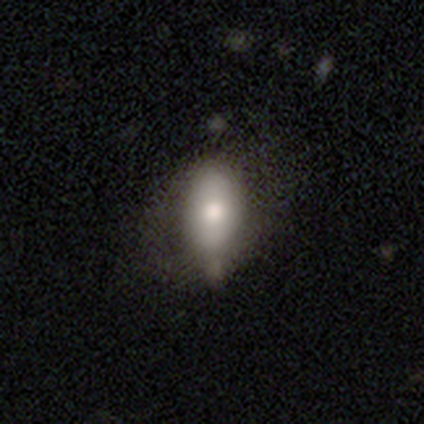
A smooth galaxy with no disk features (67%) that is in between round and cigar-shaped (50%, tied with cigar-shaped). Merging: minor disturbance (100%).